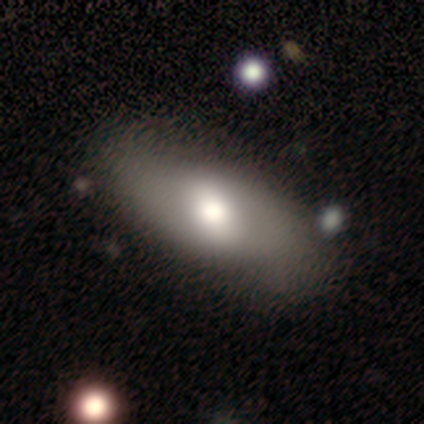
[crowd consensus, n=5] Smooth or featured: smooth — 40% (tied with featured or disk — 40%)
How rounded: in between — 100%
Merging: none — 75% (minor disturbance — 25%)